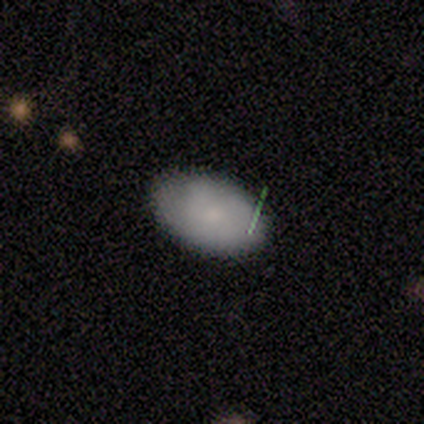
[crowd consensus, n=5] A smooth galaxy with no disk features (80%) that is in between round and cigar-shaped (100%).

Vote fractions:
- Smooth or featured? smooth: 80% / featured or disk: 20% / star or artifact: 0%
- How rounded? in between: 100% / round: 0% / cigar-shaped: 0%
- Merging? none: 100% / minor disturbance: 0% / major disturbance: 0% / merger: 0%